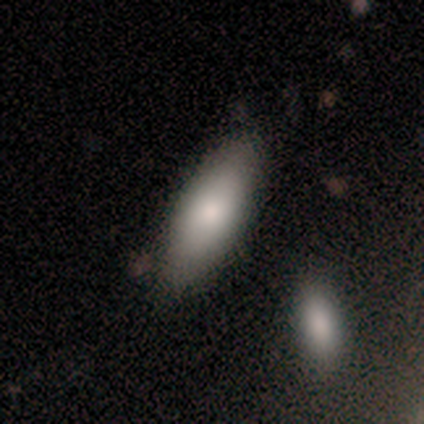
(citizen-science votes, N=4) Volunteers were most divided on "how rounded": in between: 67%, cigar-shaped: 33%, round: 0%. More confident: smooth or featured — smooth (75%); merging — minor disturbance (75%).